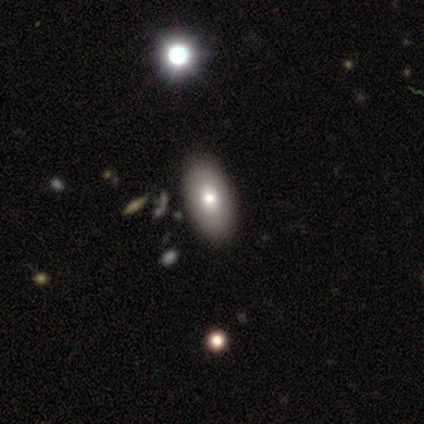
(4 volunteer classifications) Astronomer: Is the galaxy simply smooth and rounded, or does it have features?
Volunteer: smooth — 50%, tied with featured or disk at 50%.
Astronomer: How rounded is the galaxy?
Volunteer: in between — 100%.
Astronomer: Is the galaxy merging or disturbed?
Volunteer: none — 50%.